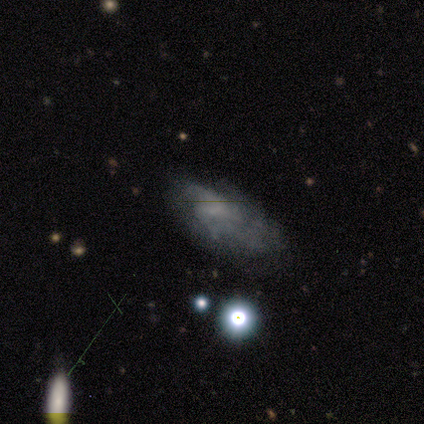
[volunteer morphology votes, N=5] Smooth or featured? 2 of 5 (40%, tied with featured or disk) said smooth. How rounded? 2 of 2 (100%) said in between. Merging? 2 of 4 (50%) said none.